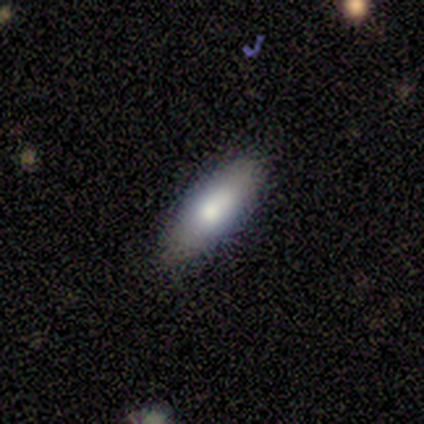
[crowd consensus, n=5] Smooth or featured: smooth — 60% (featured or disk — 40%)
How rounded: in between — 67% (cigar-shaped — 33%)
Merging: none — 100%